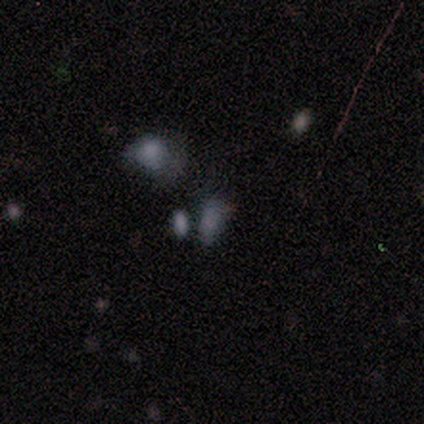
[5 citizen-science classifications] This is likely a featured or disk galaxy (60%). It is clearly not viewed edge-on (100%). Bar: clearly no (100%). Spiral arm pattern: clearly no (100%). Central bulge: clearly none (100%). Merging: likely none (75%).